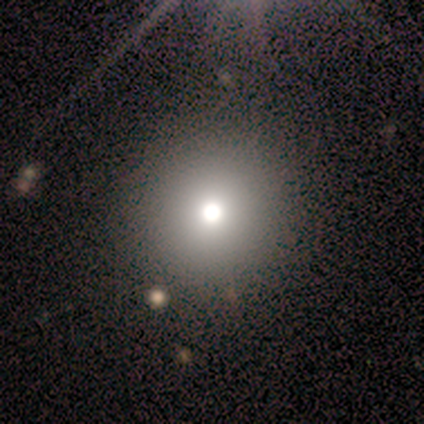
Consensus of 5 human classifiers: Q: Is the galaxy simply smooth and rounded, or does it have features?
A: featured or disk — 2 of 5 (40%, tied with star or artifact).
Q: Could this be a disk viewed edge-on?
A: no — 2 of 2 (100%).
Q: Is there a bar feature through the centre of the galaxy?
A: no — 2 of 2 (100%).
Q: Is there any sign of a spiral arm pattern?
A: no — 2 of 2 (100%).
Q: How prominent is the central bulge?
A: moderate — 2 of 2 (100%).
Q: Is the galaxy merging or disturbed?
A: none — 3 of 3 (100%).